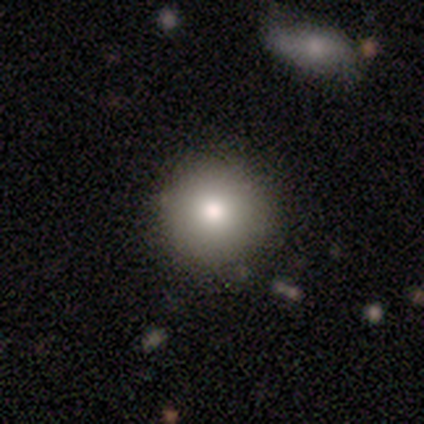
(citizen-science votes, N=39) smooth-or-featured: smooth: 77% | star or artifact: 13% | featured or disk: 10%
  how-rounded: round: 97% | in between: 3% | cigar-shaped: 0%
  merging: none: 85% | minor disturbance: 9% | major disturbance: 3% | merger: 3%